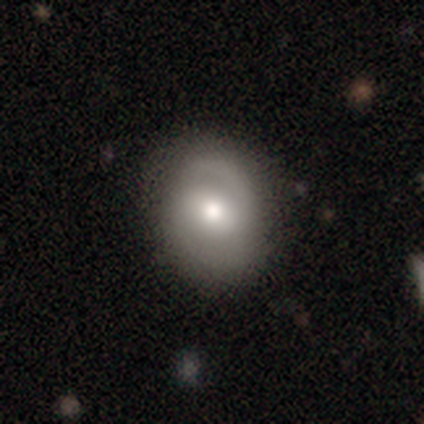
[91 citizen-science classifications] Morphology: type=smooth (49%); roundness=in between (56%); merging=none (75%).